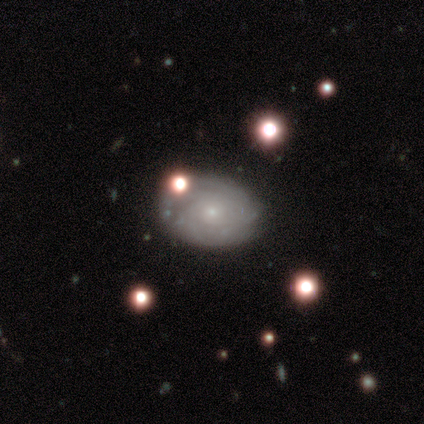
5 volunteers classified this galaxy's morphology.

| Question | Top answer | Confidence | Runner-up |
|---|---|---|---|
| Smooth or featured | featured or disk | 60% | smooth (20%) |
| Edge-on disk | no | 100% | — |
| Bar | no | 67% | weak (33%) |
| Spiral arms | yes | 67% | no (33%) |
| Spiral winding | tight | 50% | tied: medium (50%) |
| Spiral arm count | can't tell | 100% | — |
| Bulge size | small | 67% | moderate (33%) |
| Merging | none | 75% | minor disturbance (25%) |